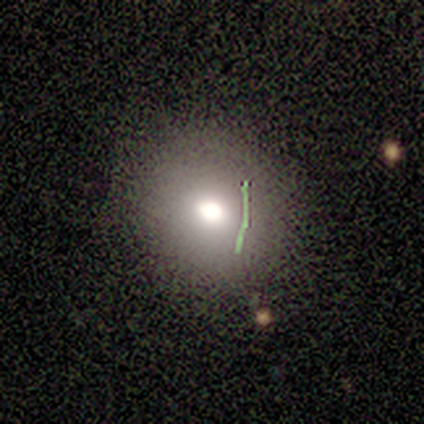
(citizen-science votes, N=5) A smooth galaxy with no disk features (80%) that is round (100%). Merging: none (75%).